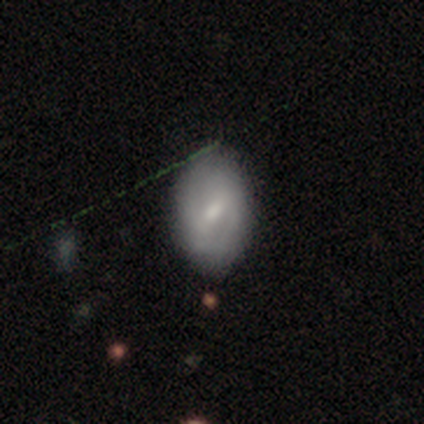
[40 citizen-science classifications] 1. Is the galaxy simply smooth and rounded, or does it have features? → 48% smooth (tied), 48% featured or disk (tied), 5% star or artifact.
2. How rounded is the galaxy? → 84% in between, 16% round, 0% cigar-shaped.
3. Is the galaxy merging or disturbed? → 66% none, 18% minor disturbance, 0% major disturbance, 0% merger.